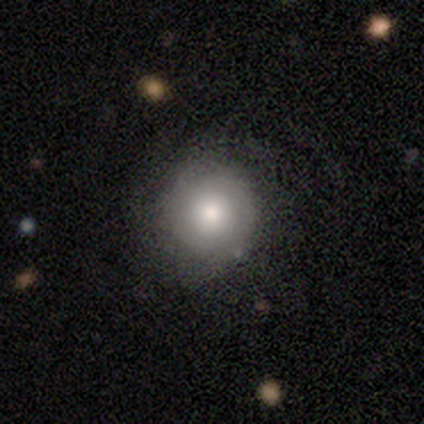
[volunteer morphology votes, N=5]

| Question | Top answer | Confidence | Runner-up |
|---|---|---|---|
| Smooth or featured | featured or disk | 60% | smooth (40%) |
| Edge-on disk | no | 100% | — |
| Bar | no | 100% | — |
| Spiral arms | yes | 100% | — |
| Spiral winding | tight | 100% | — |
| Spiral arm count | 2 | 67% | can't tell (33%) |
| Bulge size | large | 67% | moderate (33%) |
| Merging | none | 60% | minor disturbance (20%) |